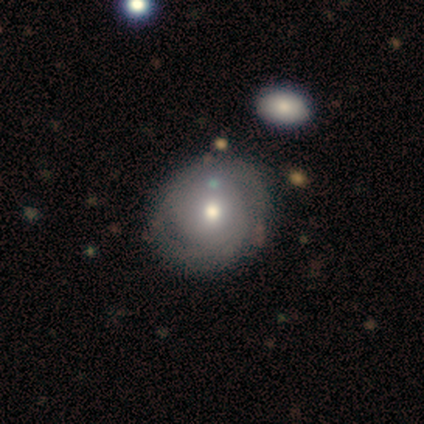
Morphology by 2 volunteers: smooth 50% (tied), featured or disk 50% (tied), star or artifact 0%. Down the decision tree: how rounded — round (100%); merging — none (50%, tied with minor disturbance).